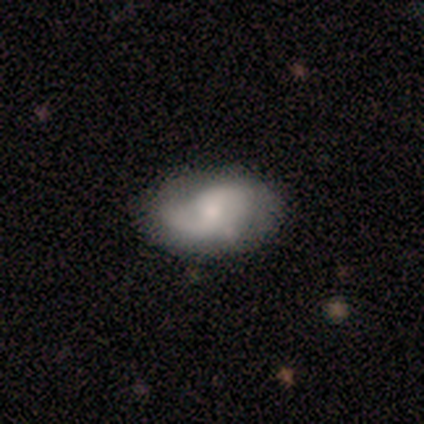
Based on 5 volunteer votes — Smooth or featured?
  - smooth: 60% *
  - featured or disk: 40%
  - star or artifact: 0%
How rounded?
  - in between: 100% *
  - round: 0%
  - cigar-shaped: 0%
Merging?
  - none: 80% *
  - minor disturbance: 20%
  - major disturbance: 0%
  - merger: 0%